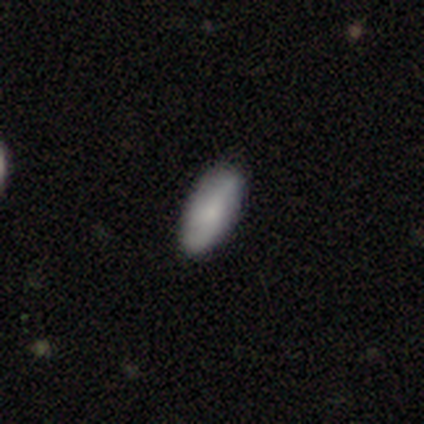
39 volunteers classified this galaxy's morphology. This appears to be a smooth galaxy with no disk features (74%) that is in between round and cigar-shaped (72%). Merging: none (73%).